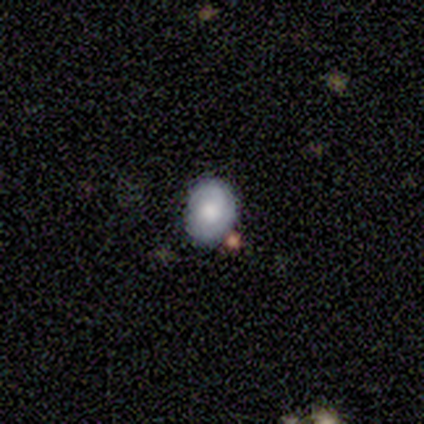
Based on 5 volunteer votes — Smooth or featured? 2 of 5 (40%, tied with featured or disk) said smooth. How rounded? 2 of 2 (100%) said round. Merging? 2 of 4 (50%, tied with merger) said none.